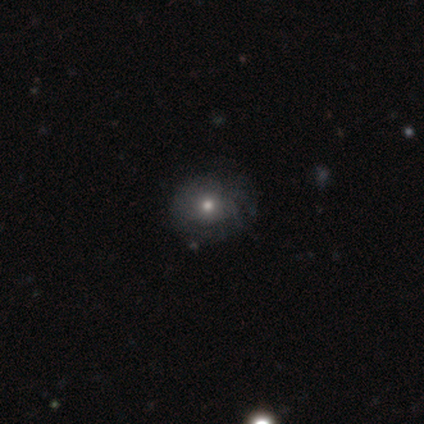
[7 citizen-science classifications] A featured or disk galaxy (86%) with no bar (100%), medium (67%) spiral arms (50%, tied with no) and a moderate central bulge (50%).

Vote fractions:
- Smooth or featured? featured or disk: 86% / star or artifact: 14% / smooth: 0%
- Edge-on disk? no: 100% / yes: 0%
- Bar? no: 100% / strong: 0% / weak: 0%
- Spiral arms? yes: 50% (tied) / no: 50% (tied)
- Spiral winding? medium: 67% / tight: 33% / loose: 0%
- Spiral arm count? can't tell: 67% / 2: 33% / 1: 0% / 3: 0% / 4: 0% / more than 4: 0%
- Bulge size? moderate: 50% / small: 33% / large: 17% / dominant: 0% / none: 0%
- Merging? none: 67% / minor disturbance: 33% / major disturbance: 0% / merger: 0%